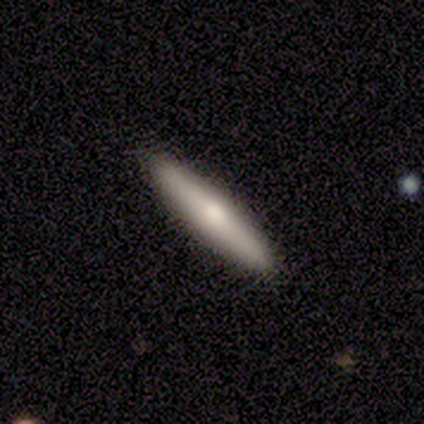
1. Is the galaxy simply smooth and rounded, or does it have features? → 100% featured or disk, 0% smooth, 0% star or artifact.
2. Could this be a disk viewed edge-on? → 100% yes, 0% no.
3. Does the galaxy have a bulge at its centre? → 80% rounded, 20% none, 0% boxy.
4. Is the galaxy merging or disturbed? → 100% none, 0% minor disturbance, 0% major disturbance, 0% merger.